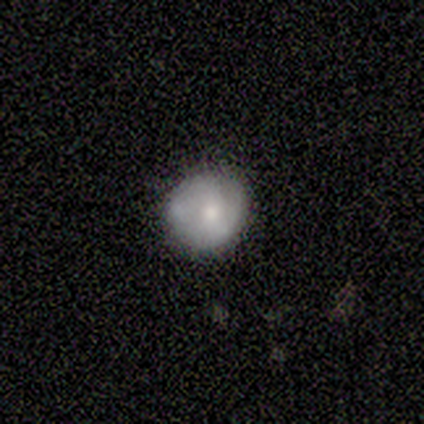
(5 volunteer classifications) smooth_or_featured: smooth (p=0.60) [alt: featured or disk p=0.40]
how_rounded: round (p=0.67) [alt: in between p=0.33]
merging: none (p=0.80) [alt: minor disturbance p=0.20]